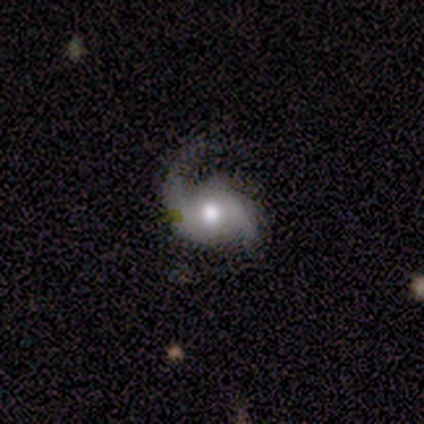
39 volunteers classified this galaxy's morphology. Overall: featured or disk (87%). Edge-on disk: no (100%). Bar: no (50%; weak 41%). Spiral arms: yes (97%). Spiral arm count: 2 (97%). Spiral winding: loose (58%; medium 30%). Bulge size: moderate (71%). Merging: none (54%; minor disturbance 26%).